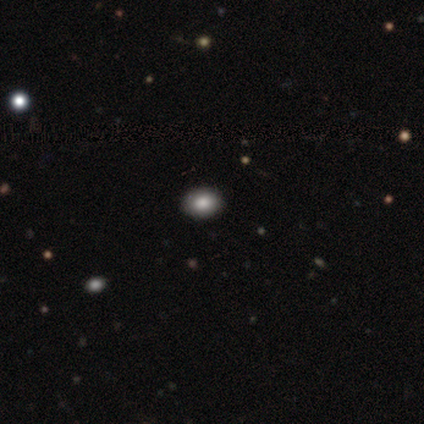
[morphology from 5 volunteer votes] A smooth galaxy with no disk features (80%) that is round (100%).

Vote fractions:
- Smooth or featured? smooth: 80% / star or artifact: 20% / featured or disk: 0%
- How rounded? round: 100% / in between: 0% / cigar-shaped: 0%
- Merging? none: 100% / minor disturbance: 0% / major disturbance: 0% / merger: 0%